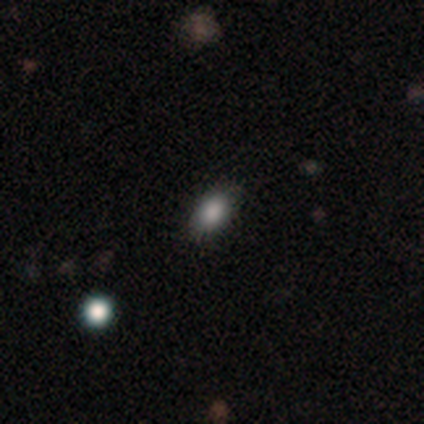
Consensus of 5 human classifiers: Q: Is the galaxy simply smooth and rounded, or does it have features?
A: smooth — 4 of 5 (80%).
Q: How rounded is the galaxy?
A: in between — 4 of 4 (100%).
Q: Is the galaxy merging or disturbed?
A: none — 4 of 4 (100%).